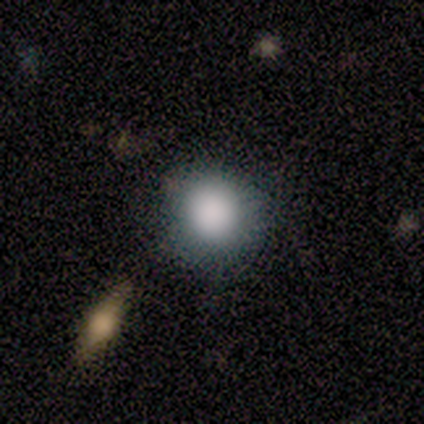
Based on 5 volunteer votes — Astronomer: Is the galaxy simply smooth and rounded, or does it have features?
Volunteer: smooth — 100%.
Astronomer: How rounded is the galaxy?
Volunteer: round — 100%.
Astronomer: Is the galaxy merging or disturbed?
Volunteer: none — 60%.